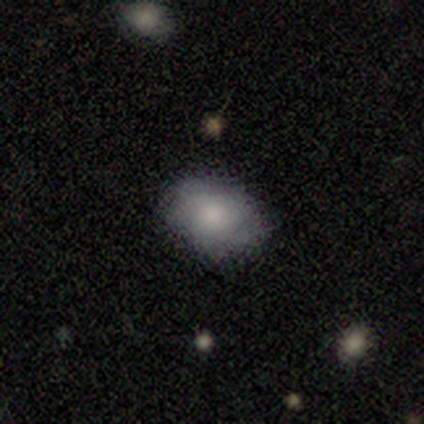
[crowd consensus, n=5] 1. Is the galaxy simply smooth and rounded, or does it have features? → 80% smooth, 20% featured or disk, 0% star or artifact.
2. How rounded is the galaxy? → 75% in between, 25% round, 0% cigar-shaped.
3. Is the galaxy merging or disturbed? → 60% none, 40% minor disturbance, 0% major disturbance, 0% merger.